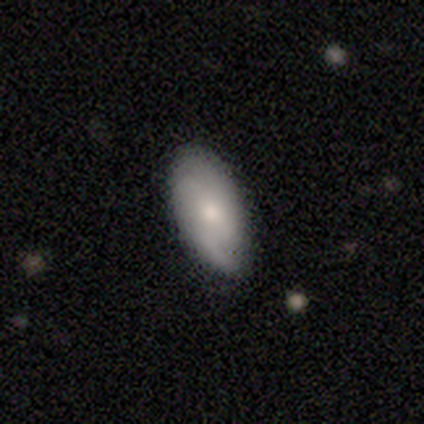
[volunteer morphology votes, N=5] This is likely a featured or disk galaxy (60%). It is likely not viewed edge-on (67%). Bar: clearly no (100%). Spiral arm pattern: possibly yes (50%, tied with no). Spiral arm count: clearly can't tell (100%). Spiral winding: clearly medium (100%). Central bulge: clearly moderate (100%). Merging: likely none (60%).